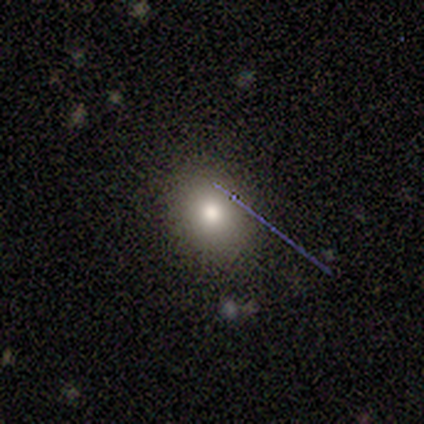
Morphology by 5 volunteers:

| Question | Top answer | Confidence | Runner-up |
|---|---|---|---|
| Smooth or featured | smooth | 60% | featured or disk (20%) |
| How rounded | in between | 67% | round (33%) |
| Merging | none | 100% | — |